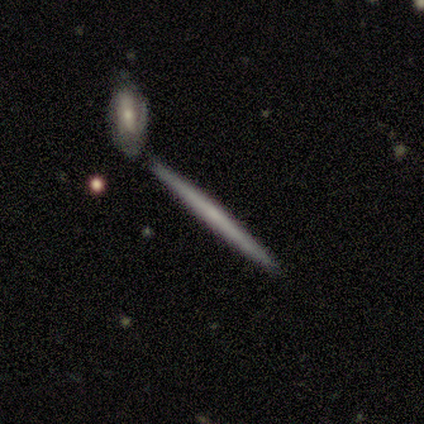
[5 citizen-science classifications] Smooth or featured?
  - featured or disk: 60% *
  - smooth: 40%
  - star or artifact: 0%
Edge-on disk?
  - yes: 100% *
  - no: 0%
Edge-on bulge?
  - none: 100% *
  - boxy: 0%
  - rounded: 0%
Merging?
  - none: 60% *
  - minor disturbance: 20%
  - merger: 20%
  - major disturbance: 0%